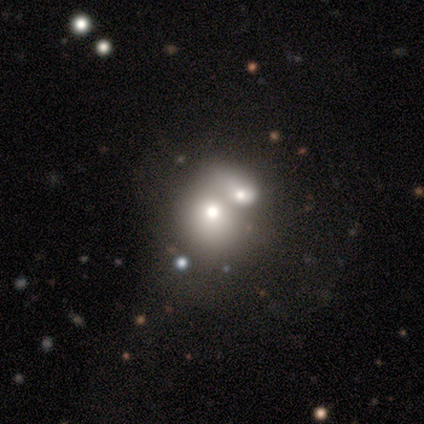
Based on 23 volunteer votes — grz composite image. It shows a smooth galaxy with no disk features (57%) that is in between round and cigar-shaped (54%). Merging: merger (80%).